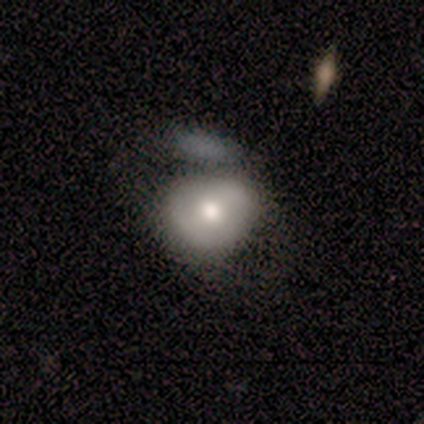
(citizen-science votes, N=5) Smooth or featured? 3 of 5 (60%) said smooth. How rounded? 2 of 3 (67%) said in between. Merging? 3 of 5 (60%) said major disturbance.